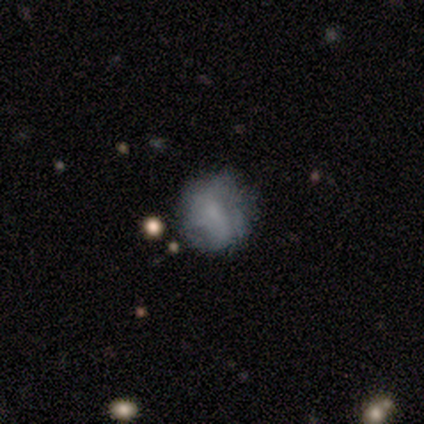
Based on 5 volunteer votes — Morphology: type=smooth (40%, tied with featured or disk); roundness=round (50%, tied with in between); merging=none (25%, tied with minor disturbance, major disturbance and merger).